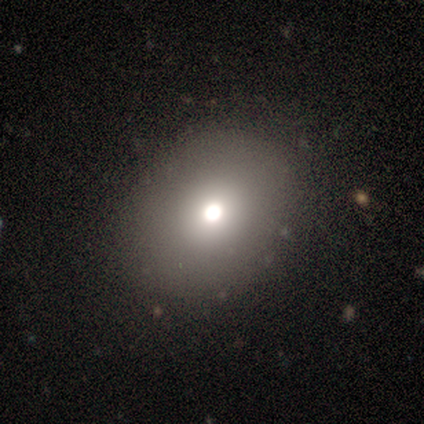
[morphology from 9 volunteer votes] smooth_or_featured: star or artifact (p=0.56) [alt: smooth p=0.44]